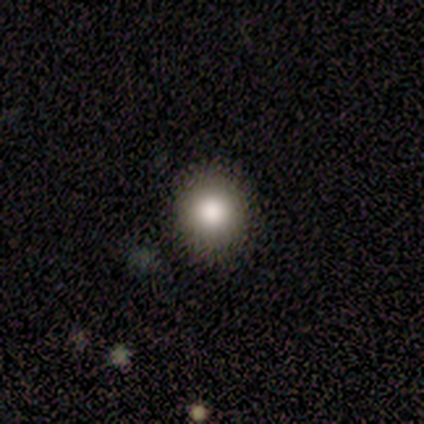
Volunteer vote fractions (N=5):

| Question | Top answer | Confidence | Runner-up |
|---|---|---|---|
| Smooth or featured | smooth | 100% | — |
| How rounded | round | 100% | — |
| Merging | none | 100% | — |